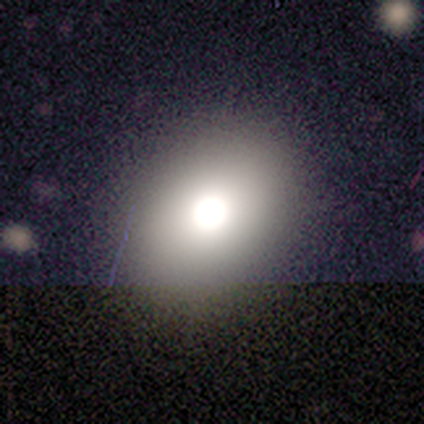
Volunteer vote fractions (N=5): Q: Smooth or featured?
A: smooth (100%)
Q: How rounded?
A: round (80%); runner-up: in between (20%)
Q: Merging?
A: none (100%)